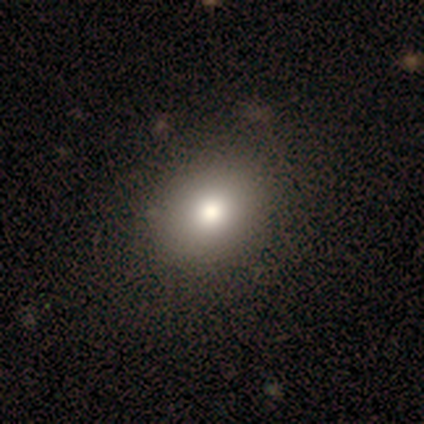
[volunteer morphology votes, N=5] Smooth or featured: smooth — 80% (featured or disk — 20%)
How rounded: round — 75% (in between — 25%)
Merging: none — 100%